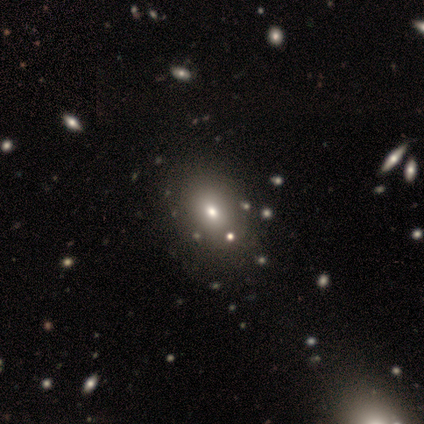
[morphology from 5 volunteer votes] Overall: smooth (80%). How rounded: round (75%). Merging: none (75%).